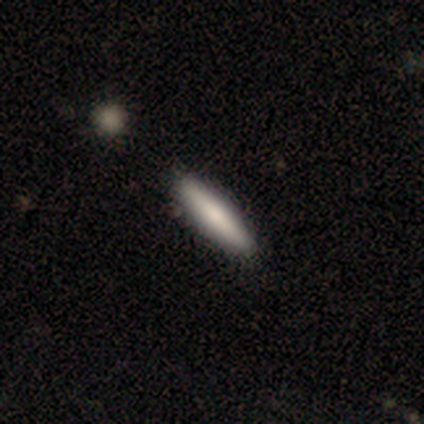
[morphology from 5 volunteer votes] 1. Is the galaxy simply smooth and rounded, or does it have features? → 80% smooth, 20% featured or disk, 0% star or artifact.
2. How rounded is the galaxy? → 100% cigar-shaped, 0% round, 0% in between.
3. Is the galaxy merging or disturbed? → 80% none, 20% major disturbance, 0% minor disturbance, 0% merger.